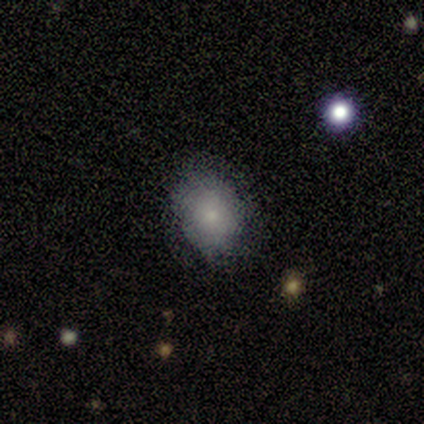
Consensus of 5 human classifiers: smooth-or-featured: smooth: 60% | featured or disk: 40% | star or artifact: 0%
  how-rounded: round: 100% | in between: 0% | cigar-shaped: 0%
  merging: none: 100% | minor disturbance: 0% | major disturbance: 0% | merger: 0%